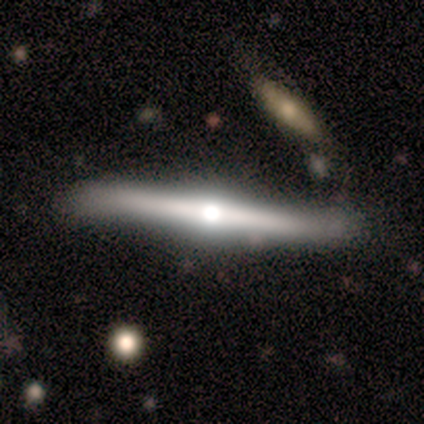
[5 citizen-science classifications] smooth 40% (tied), featured or disk 40% (tied), star or artifact 20%. Down the decision tree: how rounded — cigar-shaped (100%); merging — none (100%).